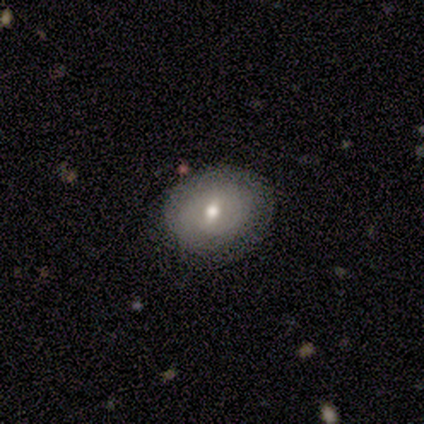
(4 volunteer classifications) Overall: smooth (100%). How rounded: round (50%, tied with in between). Merging: none (50%; minor disturbance 25%).